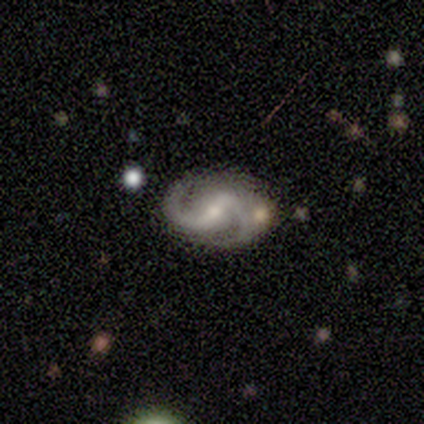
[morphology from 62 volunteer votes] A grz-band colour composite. It shows a featured or disk galaxy (89%) with a strong bar (47%), 2 (96%) medium (55%) spiral arms (100%) and a small central bulge (57%). Merging: none (67%).